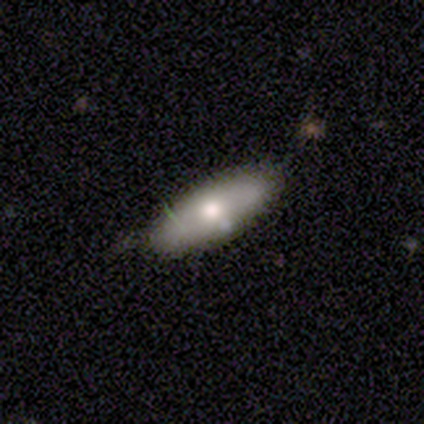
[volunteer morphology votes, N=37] smooth_or_featured: smooth (p=0.78) [alt: featured or disk p=0.19]
how_rounded: in between (p=0.86) [alt: cigar-shaped p=0.14]
merging: none (p=0.86) [alt: minor disturbance p=0.14]